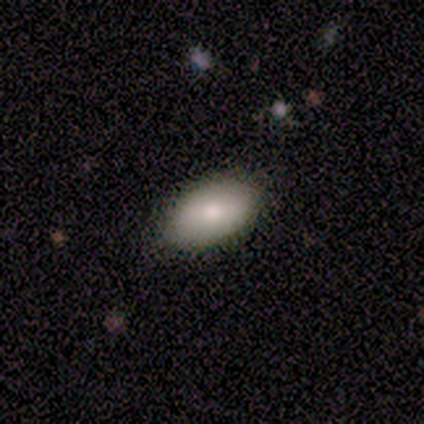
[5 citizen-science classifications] A smooth galaxy with no disk features (60%) that is in between round and cigar-shaped (100%).

Vote fractions:
- Smooth or featured? smooth: 60% / featured or disk: 40% / star or artifact: 0%
- How rounded? in between: 100% / round: 0% / cigar-shaped: 0%
- Merging? none: 100% / minor disturbance: 0% / major disturbance: 0% / merger: 0%